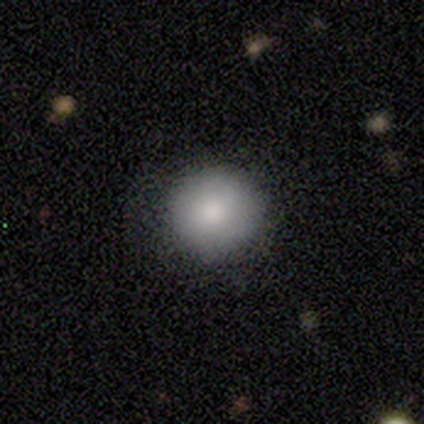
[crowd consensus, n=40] Q: Smooth or featured?
A: smooth (85%); runner-up: star or artifact (12%)
Q: How rounded?
A: round (91%); runner-up: in between (9%)
Q: Merging?
A: none (69%); runner-up: minor disturbance (17%)